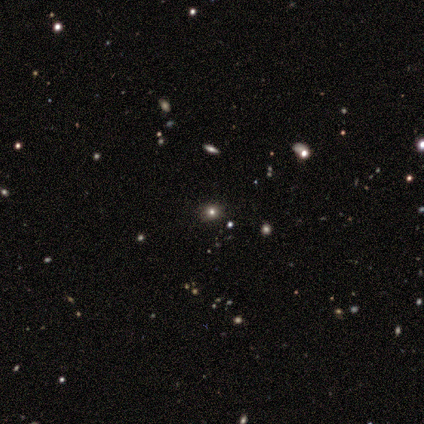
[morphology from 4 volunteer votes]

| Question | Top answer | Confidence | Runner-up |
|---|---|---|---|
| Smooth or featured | smooth | 50% | featured or disk (25%) |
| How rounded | round | 100% | — |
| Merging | none | 67% | minor disturbance (33%) |